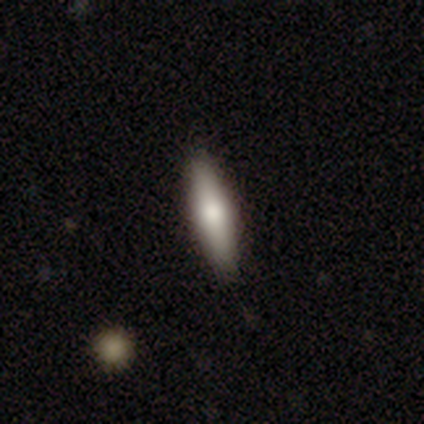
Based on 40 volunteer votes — A smooth galaxy with no disk features (72%) that is cigar-shaped (59%).

Vote fractions:
- Smooth or featured? smooth: 72% / featured or disk: 25% / star or artifact: 2%
- How rounded? cigar-shaped: 59% / in between: 41% / round: 0%
- Merging? none: 67% / minor disturbance: 3% / merger: 3% / major disturbance: 0%